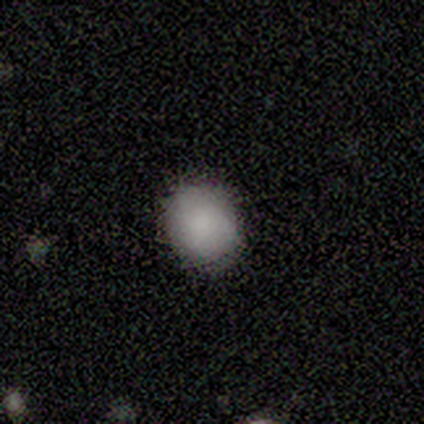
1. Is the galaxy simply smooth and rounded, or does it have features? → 80% smooth, 20% featured or disk, 0% star or artifact.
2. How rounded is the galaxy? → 100% round, 0% in between, 0% cigar-shaped.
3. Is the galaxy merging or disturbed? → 100% none, 0% minor disturbance, 0% major disturbance, 0% merger.